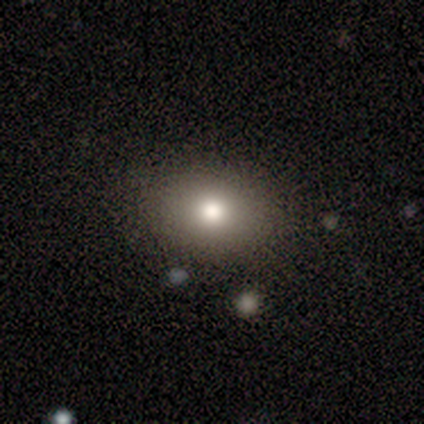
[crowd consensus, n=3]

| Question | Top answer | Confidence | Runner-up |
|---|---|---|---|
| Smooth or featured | star or artifact | 67% | featured or disk (33%) |